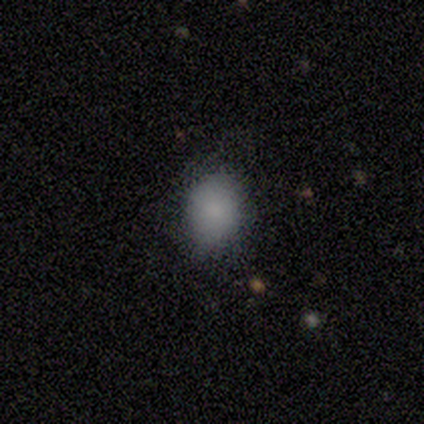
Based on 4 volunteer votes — smooth-or-featured: smooth: 75% | star or artifact: 25% | featured or disk: 0%
  how-rounded: in between: 67% | round: 33% | cigar-shaped: 0%
  merging: none: 67% | minor disturbance: 33% | major disturbance: 0% | merger: 0%